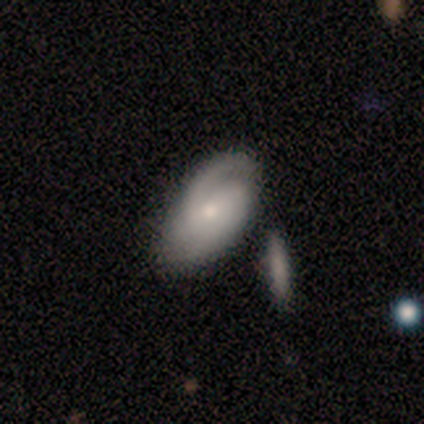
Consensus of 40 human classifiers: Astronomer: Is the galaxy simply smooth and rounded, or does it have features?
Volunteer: featured or disk — 80%.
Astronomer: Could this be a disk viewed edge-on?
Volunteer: no — 97%.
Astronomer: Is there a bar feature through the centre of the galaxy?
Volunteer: no — 61%.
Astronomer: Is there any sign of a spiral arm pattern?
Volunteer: yes — 94%.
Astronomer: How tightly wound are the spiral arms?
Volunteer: medium — 48% (runner-up: tight, 38%).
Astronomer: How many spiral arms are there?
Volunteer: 2 — 34% (runner-up: can't tell, 31%).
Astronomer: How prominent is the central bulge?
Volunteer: moderate — 55% (runner-up: small, 35%).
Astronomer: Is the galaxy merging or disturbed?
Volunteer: none — 35% (runner-up: merger, 22%).